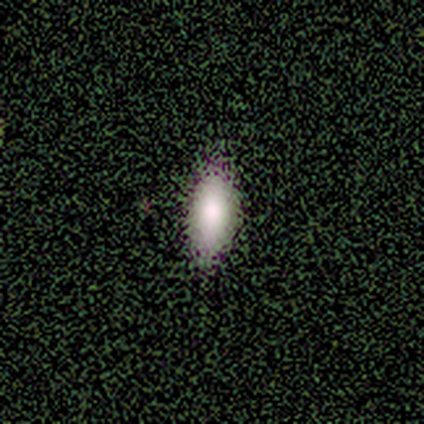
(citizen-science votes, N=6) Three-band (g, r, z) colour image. It shows a smooth galaxy with no disk features (83%) that is in between round and cigar-shaped (100%). Merging: none (83%).